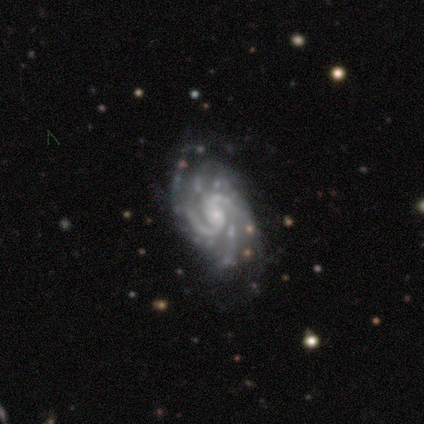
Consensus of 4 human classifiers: This is clearly a featured or disk galaxy (100%). It is clearly not viewed edge-on (100%). Bar: possibly weak (50%, tied with no). Spiral arm pattern: clearly yes (100%). Spiral arm count: possibly can't tell (50%). Spiral winding: likely tight (75%). Central bulge: clearly small (100%). Merging: clearly none (100%).